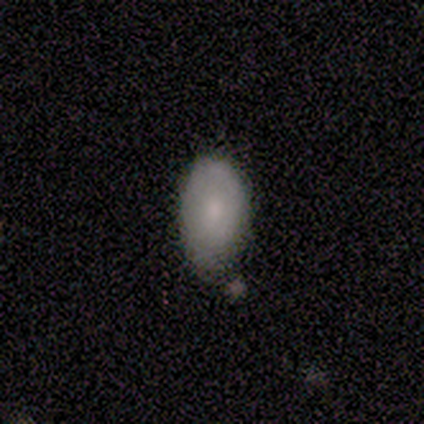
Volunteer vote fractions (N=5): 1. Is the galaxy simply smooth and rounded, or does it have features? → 60% smooth, 40% featured or disk, 0% star or artifact.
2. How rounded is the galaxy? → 100% in between, 0% round, 0% cigar-shaped.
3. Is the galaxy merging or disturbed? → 60% none, 40% minor disturbance, 0% major disturbance, 0% merger.